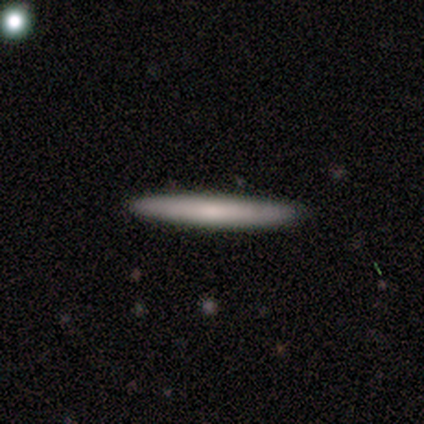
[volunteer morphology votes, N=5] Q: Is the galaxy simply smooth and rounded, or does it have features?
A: smooth — 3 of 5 (60%).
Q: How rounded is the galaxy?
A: cigar-shaped — 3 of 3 (100%).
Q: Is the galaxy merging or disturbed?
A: none — 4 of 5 (80%).